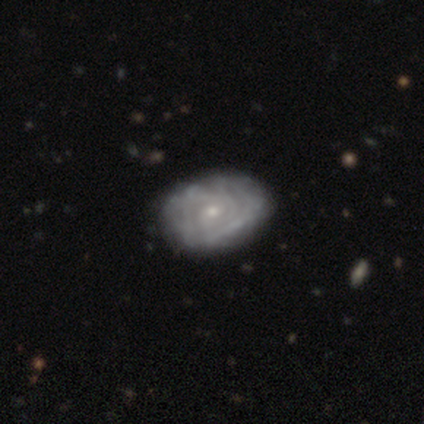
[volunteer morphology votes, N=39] featured or disk 85%, smooth 15%, star or artifact 0%. Down the decision tree: edge-on disk — no (100%); bar — no (64%); spiral arms — yes (85%); spiral arm count — can't tell (57%); spiral winding — tight (71%); bulge size — small (67%); merging — none (54%).